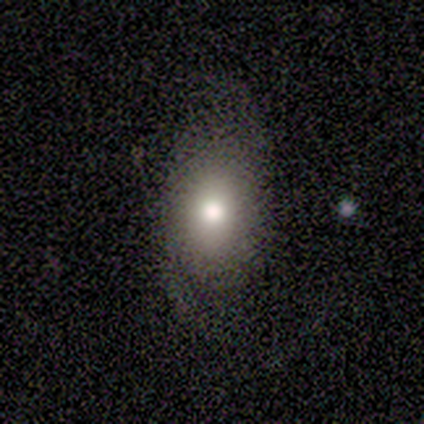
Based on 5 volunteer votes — This is likely a smooth galaxy (60%). How rounded: clearly in between (100%). Merging: clearly none (100%).